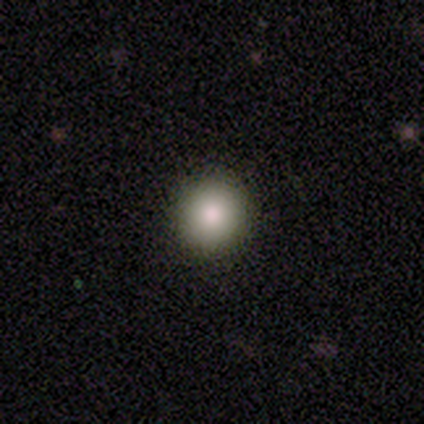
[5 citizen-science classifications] This appears to be a smooth galaxy with no disk features (60%) that is round (100%). Merging: none (50%).